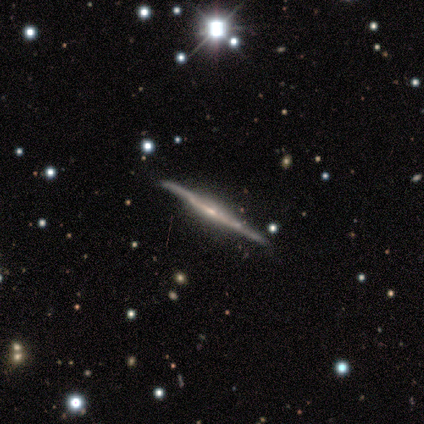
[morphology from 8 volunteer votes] Smooth or featured?
  - featured or disk: 100% *
  - smooth: 0%
  - star or artifact: 0%
Edge-on disk?
  - yes: 100% *
  - no: 0%
Edge-on bulge?
  - none: 50% *
  - rounded: 38%
  - boxy: 12%
Merging?
  - none: 88% *
  - minor disturbance: 12%
  - major disturbance: 0%
  - merger: 0%